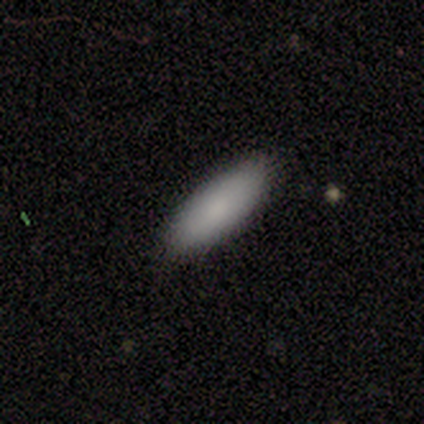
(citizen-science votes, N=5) Smooth or featured? 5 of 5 (100%) said smooth. How rounded? 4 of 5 (80%) said in between. Merging? 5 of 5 (100%) said none.